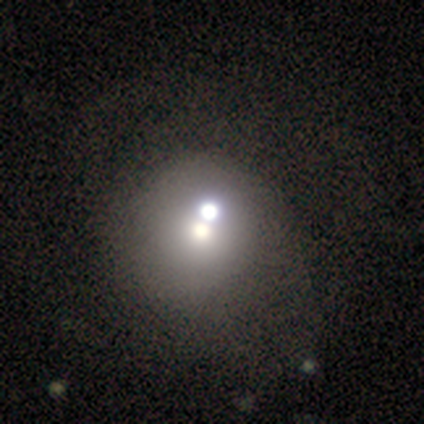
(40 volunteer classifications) Volunteers were most divided on "merging": merger: 47%, none: 31%, minor disturbance: 3%, major disturbance: 3%. More confident: how rounded — round (73%); smooth or featured — smooth (55%).